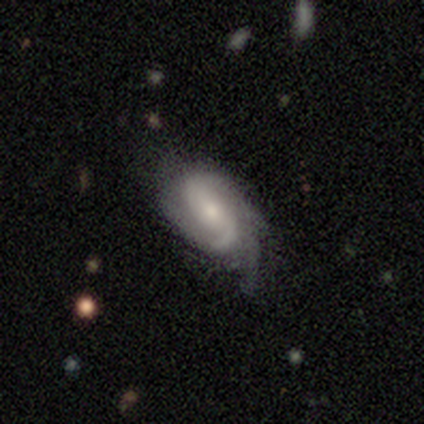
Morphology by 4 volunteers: Smooth or featured? featured or disk (100%)
Edge-on disk? no (100%)
Bar? no (100%)
Spiral arms? yes (100%)
Spiral winding? tight (50%, tied with medium)
Spiral arm count? 3 (50%)
Bulge size? small (75%)
Merging? none (50%)